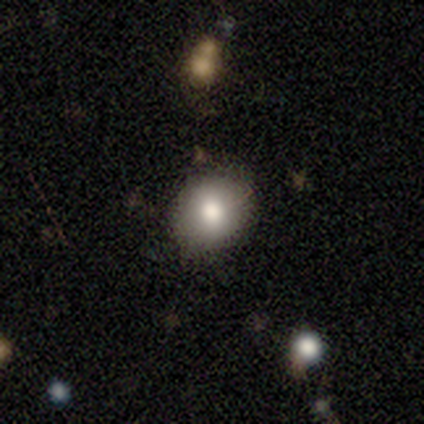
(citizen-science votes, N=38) smooth 76%, featured or disk 16%, star or artifact 8%. Down the decision tree: how rounded — round (76%); merging — none (91%).